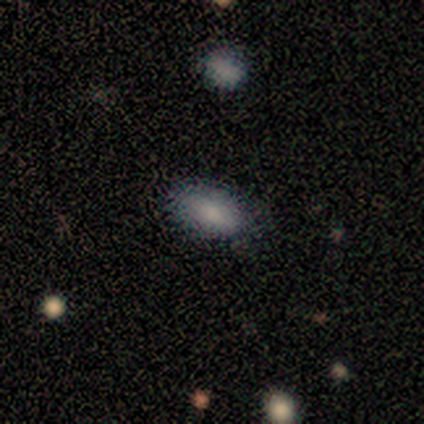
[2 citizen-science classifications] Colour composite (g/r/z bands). It shows a smooth galaxy with no disk features (100%) that is in between round and cigar-shaped (50%, tied with cigar-shaped). Merging: minor disturbance (50%, tied with major disturbance).